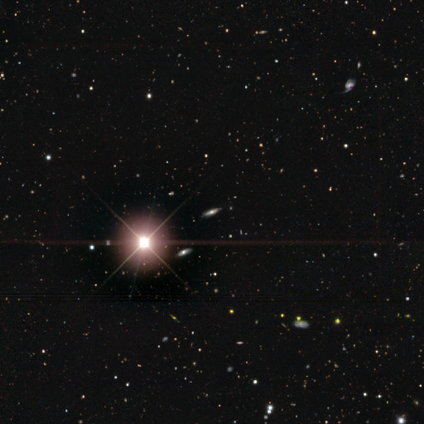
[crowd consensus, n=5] Smooth or featured? featured or disk (40%, tied with star or artifact)
Edge-on disk? yes (100%)
Edge-on bulge? rounded (100%)
Merging? none (67%)